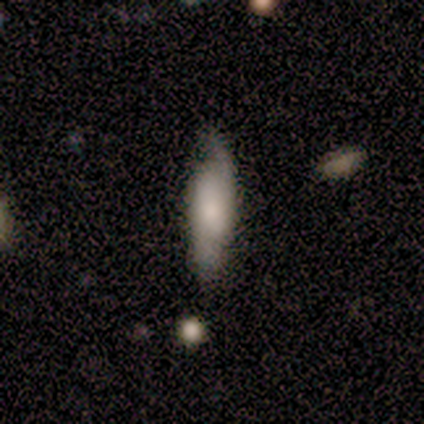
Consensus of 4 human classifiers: Volunteers were most divided on "spiral winding" (2-way tie): tight: 50%, loose: 50%, medium: 0%; "spiral arm count" (2-way tie): 2: 50%, more than 4: 50%, 1: 0%, 3: 0%, 4: 0%, can't tell: 0%; "bulge size" (2-way tie): small: 50%, none: 50%, dominant: 0%, large: 0%, moderate: 0%. More confident: bar — weak (100%); spiral arms — yes (100%); smooth or featured — featured or disk (75%); edge-on disk — no (67%); merging — minor disturbance (50%).